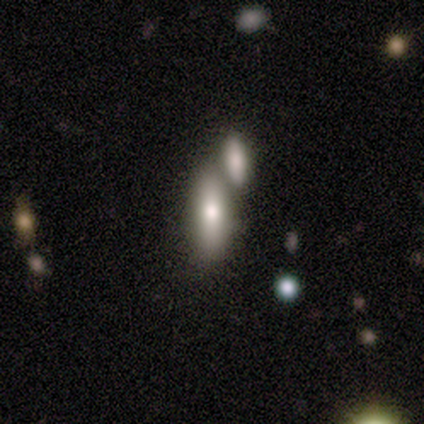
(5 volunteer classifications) Smooth or featured: featured or disk — 60% (smooth — 40%)
Edge-on disk: no — 100%
Bar: no — 67% (weak — 33%)
Spiral arms: no — 100%
Bulge size: small — 67% (none — 33%)
Merging: merger — 80% (minor disturbance — 20%)